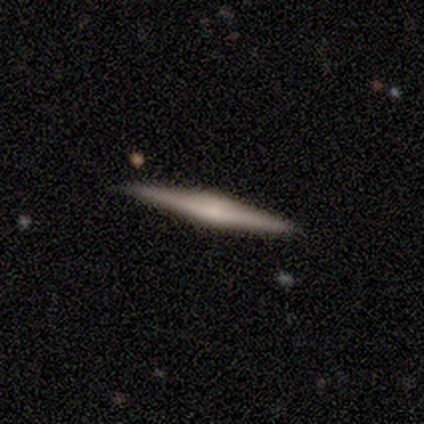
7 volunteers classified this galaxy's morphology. Smooth or featured? 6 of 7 (86%) said featured or disk. Edge-on disk? 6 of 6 (100%) said yes. Edge-on bulge? 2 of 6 (33%, tied with none and rounded) said boxy. Merging? 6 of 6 (100%) said none.